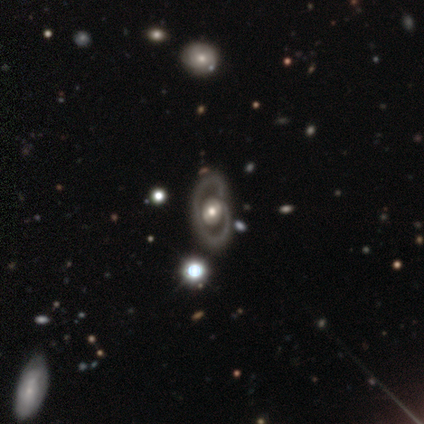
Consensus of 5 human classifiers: A featured or disk galaxy (80%) with a weak bar (50%, tied with no), 1 (67%) tight (67%) spiral arms (75%) and a moderate central bulge (75%). Merging: none (100%).